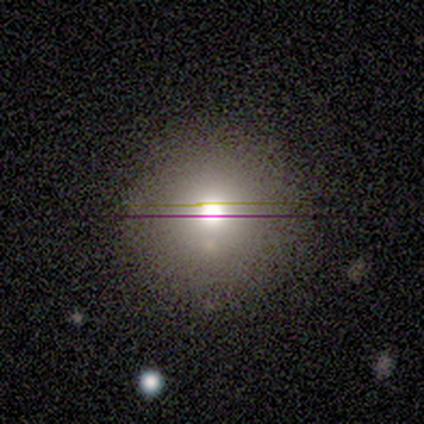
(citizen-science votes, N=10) A smooth galaxy with no disk features (50%) that is round (100%). Merging: none (78%).